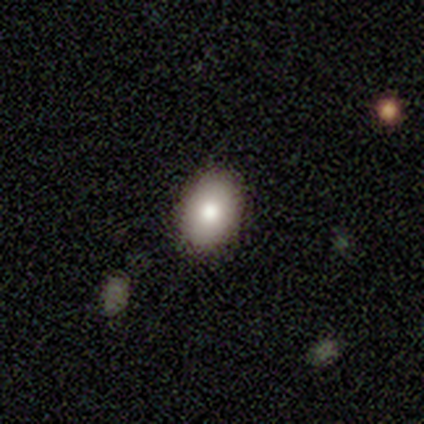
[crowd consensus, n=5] Morphology: type=smooth (100%); roundness=in between (60%); merging=none (80%).